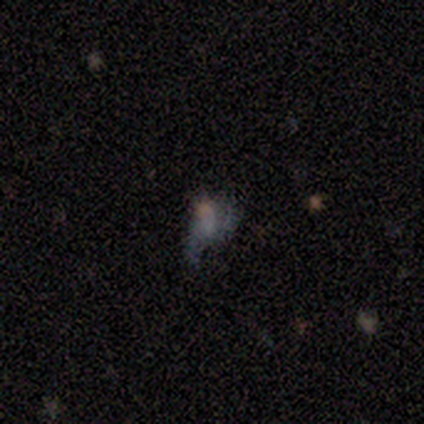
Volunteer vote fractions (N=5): smooth_or_featured: star or artifact (p=0.60) [alt: smooth p=0.20]